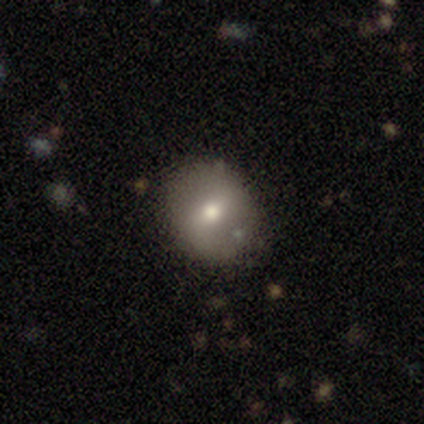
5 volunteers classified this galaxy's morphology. smooth-or-featured: featured or disk: 60% | smooth: 20% | star or artifact: 20%
  disk-edge-on: no: 100% | yes: 0%
    bar: no: 67% | weak: 33% | strong: 0%
    has-spiral-arms: no: 67% | yes: 33%
    bulge-size: moderate: 67% | small: 33% | dominant: 0% | large: 0% | none: 0%
  merging: none: 75% | minor disturbance: 25% | major disturbance: 0% | merger: 0%